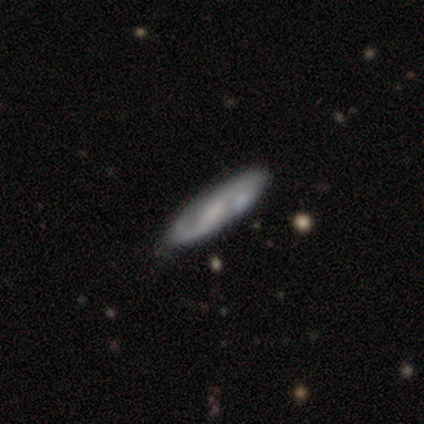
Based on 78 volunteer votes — Smooth or featured: featured or disk — 65% (smooth — 31%)
Edge-on disk: no — 82% (yes — 18%)
Bar: no — 45% (weak — 40%)
Spiral arms: yes — 90% (no — 10%)
Spiral winding: medium — 61% (loose — 29%)
Spiral arm count: 2 — 82% (1 — 13%)
Bulge size: none — 40% (small — 33%)
Merging: none — 41% (minor disturbance — 7%)